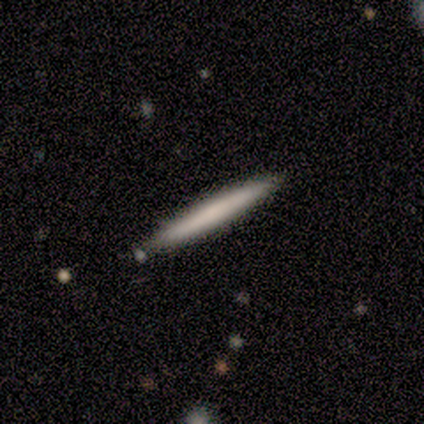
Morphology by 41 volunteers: Overall: smooth (71%). How rounded: cigar-shaped (93%). Merging: none (90%).